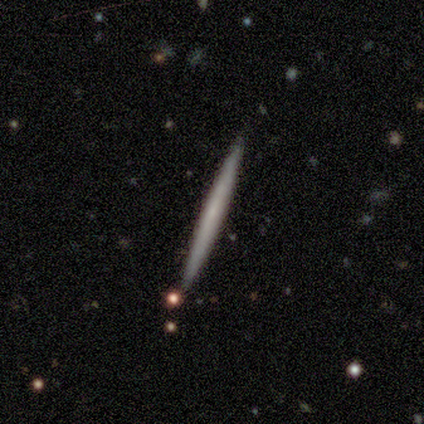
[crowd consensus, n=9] This appears to be a featured or disk galaxy (67%) viewed edge-on (100%) with no central bulge (100%). Merging: none (88%).